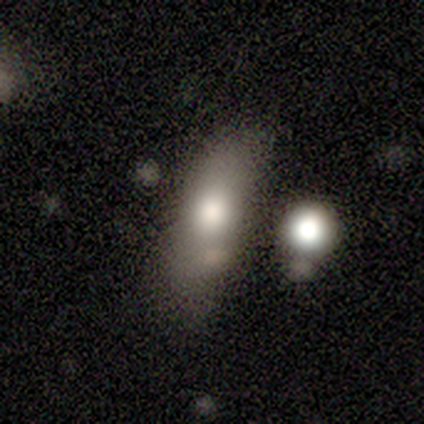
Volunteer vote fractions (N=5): This is clearly a smooth galaxy (80%). How rounded: likely in between (75%). Merging: clearly none (80%).